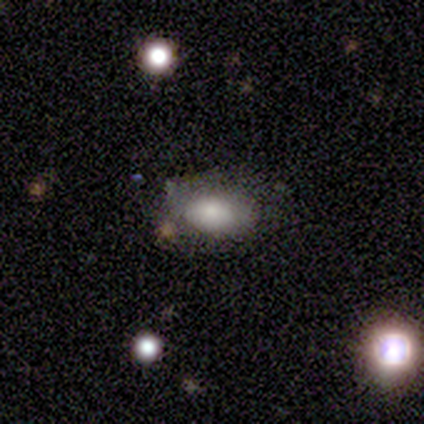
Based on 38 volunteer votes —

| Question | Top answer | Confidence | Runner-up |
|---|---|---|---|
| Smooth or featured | smooth | 76% | star or artifact (13%) |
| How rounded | in between | 97% | round (3%) |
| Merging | none | 70% | minor disturbance (24%) |